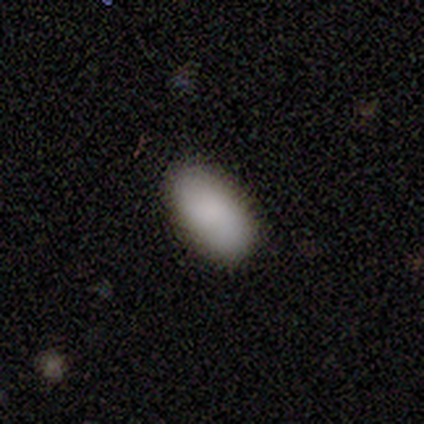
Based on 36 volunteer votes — Smooth or featured?
  - smooth: 94% *
  - featured or disk: 3%
  - star or artifact: 3%
How rounded?
  - in between: 97% *
  - round: 3%
  - cigar-shaped: 0%
Merging?
  - none: 89% *
  - minor disturbance: 9%
  - major disturbance: 3%
  - merger: 0%